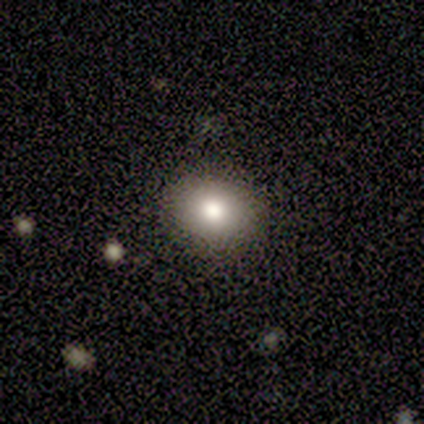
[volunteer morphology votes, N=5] A smooth galaxy with no disk features (60%) that is in between round and cigar-shaped (100%). Merging: none (100%).